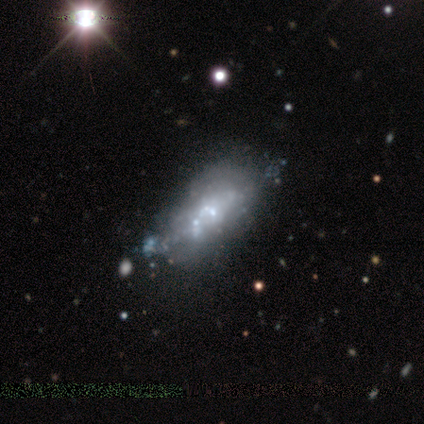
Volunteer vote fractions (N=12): smooth-or-featured: featured or disk: 83% | smooth: 8% | star or artifact: 8%
  disk-edge-on: no: 80% | yes: 20%
    bar: no: 100% | strong: 0% | weak: 0%
    has-spiral-arms: no: 100% | yes: 0%
    bulge-size: none: 50% | small: 38% | moderate: 12% | dominant: 0% | large: 0%
  merging: none: 36% (tied) | minor disturbance: 36% (tied) | major disturbance: 18% | merger: 9%